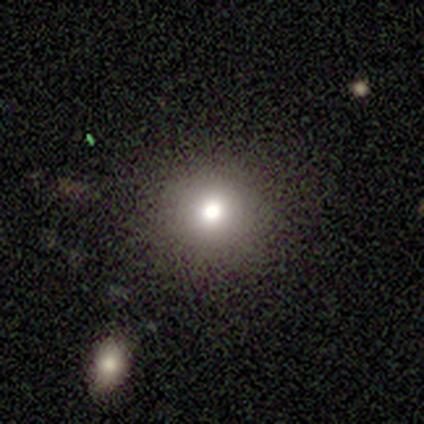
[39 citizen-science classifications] A smooth galaxy with no disk features (79%) that is round (94%). Merging: none (97%).